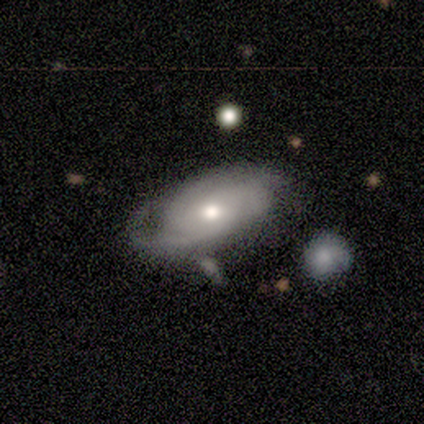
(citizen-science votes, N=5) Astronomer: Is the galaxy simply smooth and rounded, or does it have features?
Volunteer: featured or disk — 80%.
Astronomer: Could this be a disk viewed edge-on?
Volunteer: no — 100%.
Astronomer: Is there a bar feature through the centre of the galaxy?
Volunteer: no — 100%.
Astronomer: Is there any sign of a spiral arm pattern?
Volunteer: yes — 75%.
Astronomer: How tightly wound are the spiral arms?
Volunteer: tight — 67%.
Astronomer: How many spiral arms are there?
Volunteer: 2 — 67%.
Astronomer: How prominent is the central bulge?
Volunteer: moderate — 75%.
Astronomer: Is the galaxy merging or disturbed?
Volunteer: minor disturbance — 80%.